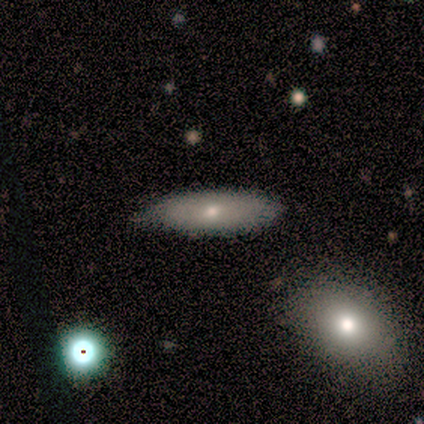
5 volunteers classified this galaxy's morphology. Smooth or featured? 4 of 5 (80%) said smooth. How rounded? 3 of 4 (75%) said in between. Merging? 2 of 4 (50%, tied with minor disturbance) said none.